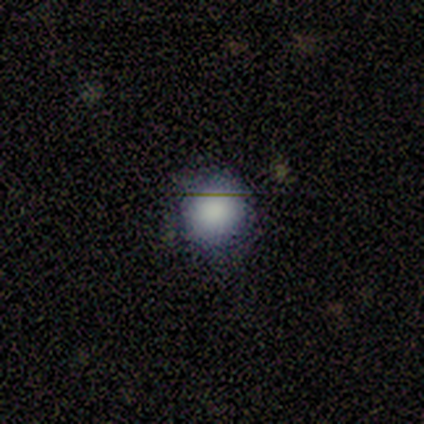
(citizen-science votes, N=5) smooth 60%, star or artifact 40%, featured or disk 0%. Down the decision tree: how rounded — round (100%); merging — none (100%).